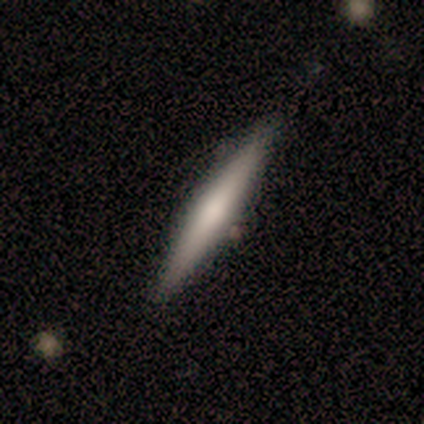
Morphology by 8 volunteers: Smooth or featured: smooth — 100%
How rounded: cigar-shaped — 100%
Merging: none — 88% (minor disturbance — 12%)